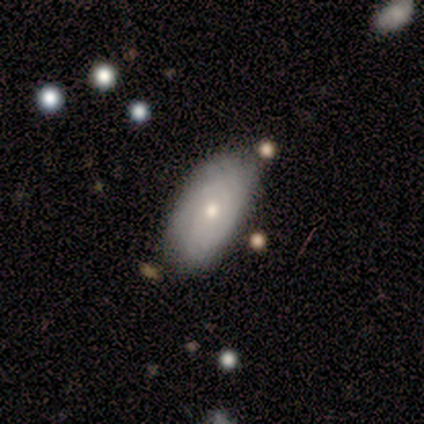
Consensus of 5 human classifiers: This appears to be a smooth galaxy with no disk features (80%) that is in between round and cigar-shaped (75%). Merging: none (50%, tied with minor disturbance).